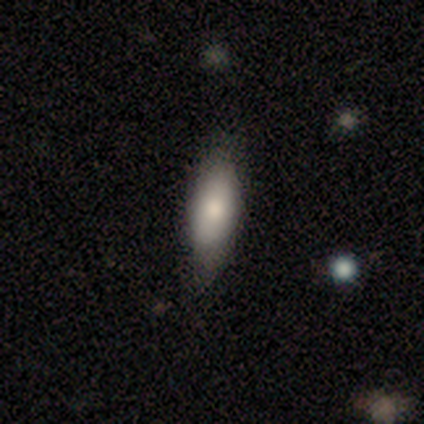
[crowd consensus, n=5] A featured or disk galaxy (60%) with no bar (100%), no spiral arms (100%) and a moderate central bulge (100%).

Vote fractions:
- Smooth or featured? featured or disk: 60% / smooth: 40% / star or artifact: 0%
- Edge-on disk? no: 67% / yes: 33%
- Bar? no: 100% / strong: 0% / weak: 0%
- Spiral arms? no: 100% / yes: 0%
- Bulge size? moderate: 100% / dominant: 0% / large: 0% / small: 0% / none: 0%
- Merging? none: 60% / minor disturbance: 40% / major disturbance: 0% / merger: 0%